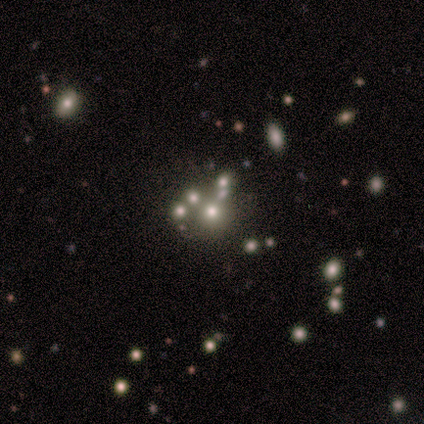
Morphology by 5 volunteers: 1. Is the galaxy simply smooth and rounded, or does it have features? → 60% smooth, 40% star or artifact, 0% featured or disk.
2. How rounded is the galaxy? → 67% round, 33% in between, 0% cigar-shaped.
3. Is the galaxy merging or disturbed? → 33% none (tied), 33% minor disturbance (tied), 33% merger (tied), 0% major disturbance.